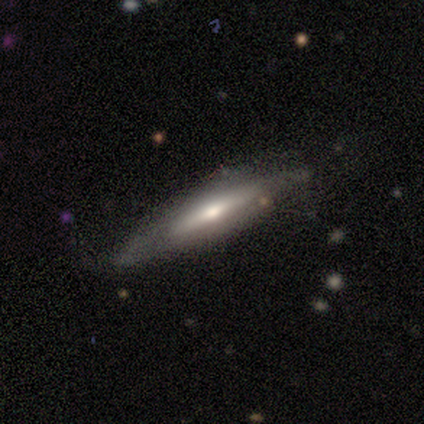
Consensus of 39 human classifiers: Smooth or featured? featured or disk (74%)
Edge-on disk? yes (86%)
Edge-on bulge? rounded (80%)
Merging? none (54%)